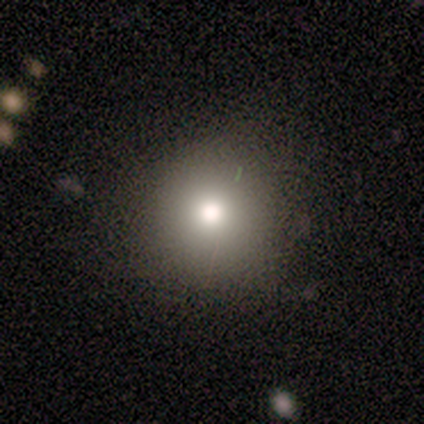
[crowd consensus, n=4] smooth 50% (tied), star or artifact 50% (tied), featured or disk 0%. Down the decision tree: how rounded — round (100%); merging — none (100%).